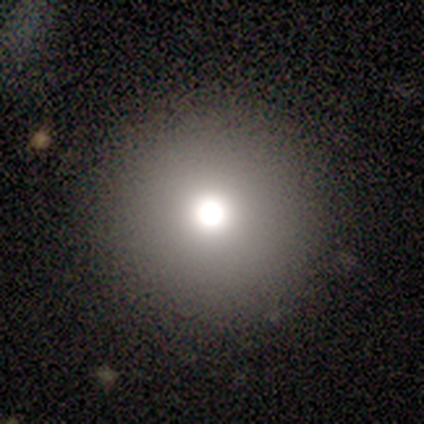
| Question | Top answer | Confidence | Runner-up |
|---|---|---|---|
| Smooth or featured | smooth | 75% | featured or disk (25%) |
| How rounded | round | 100% | — |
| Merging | none | 100% | — |